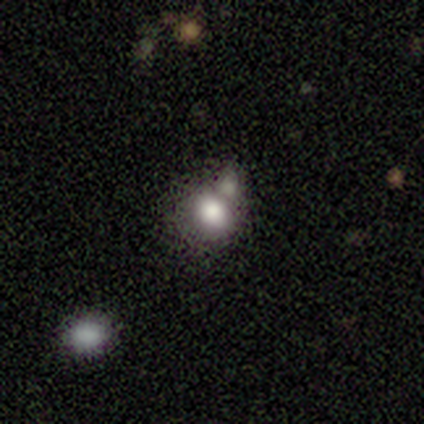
This is clearly a smooth galaxy (80%). How rounded: possibly round (50%, tied with in between). Merging: marginally none (25%, tied with minor disturbance, major disturbance and merger).